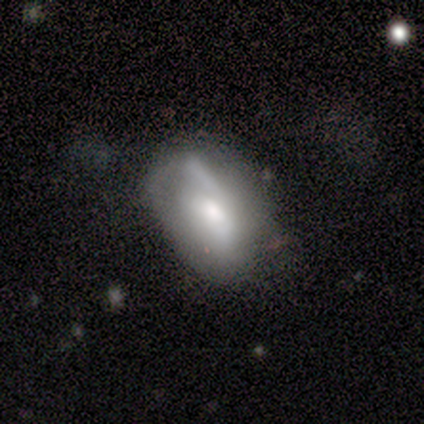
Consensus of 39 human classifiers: Smooth or featured? featured or disk (54%)
Edge-on disk? no (90%)
Bar? no (58%)
Spiral arms? no (63%)
Bulge size? moderate (53%)
Merging? none (42%)